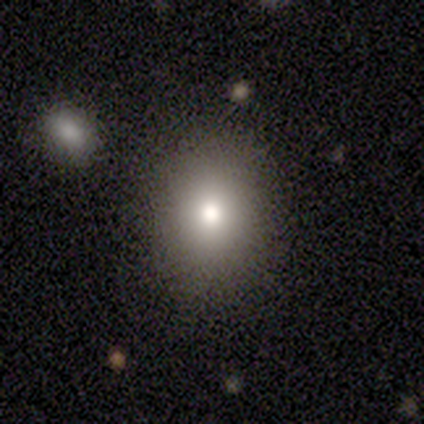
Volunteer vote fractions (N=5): Smooth or featured? 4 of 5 (80%) said smooth. How rounded? 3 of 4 (75%) said round. Merging? 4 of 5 (80%) said none.